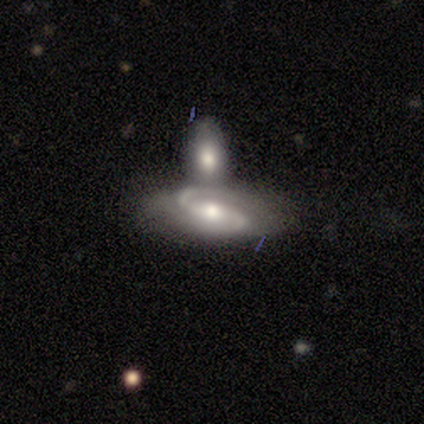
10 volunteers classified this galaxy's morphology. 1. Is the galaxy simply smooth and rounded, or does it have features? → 100% featured or disk, 0% smooth, 0% star or artifact.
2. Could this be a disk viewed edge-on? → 100% no, 0% yes.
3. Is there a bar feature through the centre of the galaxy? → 50% weak, 40% strong, 10% no.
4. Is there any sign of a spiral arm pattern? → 100% yes, 0% no.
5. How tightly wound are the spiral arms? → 70% loose, 30% medium, 0% tight.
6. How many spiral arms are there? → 100% 2, 0% 1, 0% 3, 0% 4, 0% more than 4, 0% can't tell.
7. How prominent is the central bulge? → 60% moderate, 40% small, 0% dominant, 0% large, 0% none.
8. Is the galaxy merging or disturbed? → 70% merger, 30% none, 0% minor disturbance, 0% major disturbance.